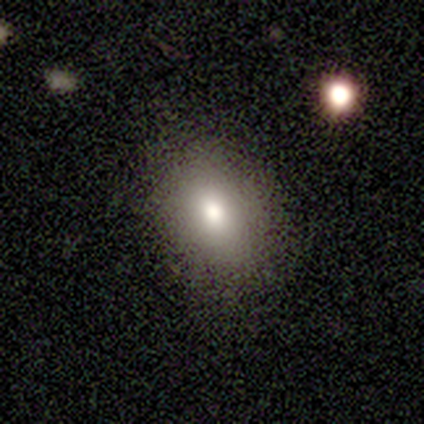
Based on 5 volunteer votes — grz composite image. It shows a smooth galaxy with no disk features (80%) that is in between round and cigar-shaped (75%). Merging: none (75%).